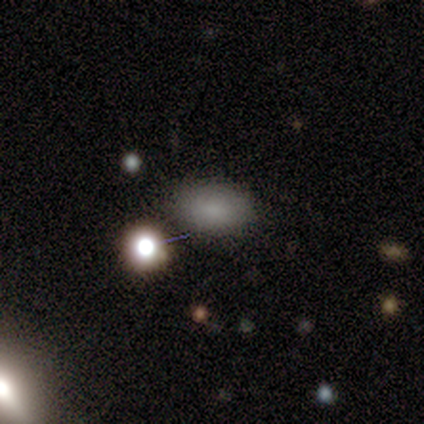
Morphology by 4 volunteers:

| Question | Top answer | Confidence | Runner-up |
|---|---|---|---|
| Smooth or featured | smooth | 100% | — |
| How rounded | in between | 100% | — |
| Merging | none | 75% | minor disturbance (25%) |